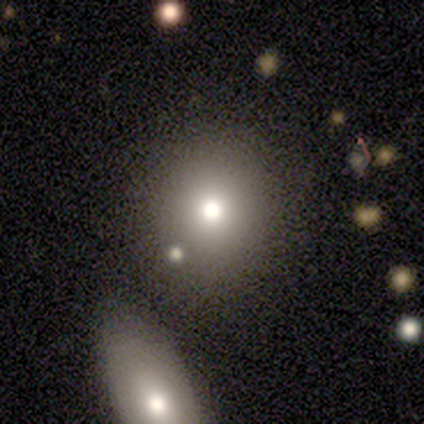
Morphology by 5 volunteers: type=smooth (60%); roundness=round (100%); merging=none (100%).